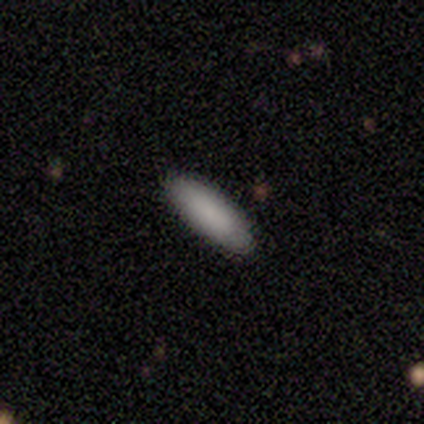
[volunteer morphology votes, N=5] A smooth galaxy with no disk features (80%) that is in between round and cigar-shaped (50%, tied with cigar-shaped).

Vote fractions:
- Smooth or featured? smooth: 80% / featured or disk: 20% / star or artifact: 0%
- How rounded? in between: 50% (tied) / cigar-shaped: 50% (tied) / round: 0%
- Merging? none: 100% / minor disturbance: 0% / major disturbance: 0% / merger: 0%